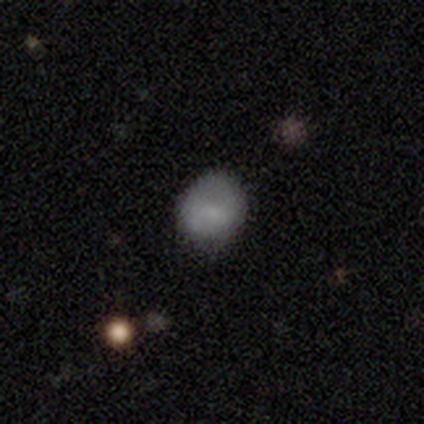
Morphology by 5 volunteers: Smooth or featured? 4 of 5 (80%) said smooth. How rounded? 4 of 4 (100%) said round. Merging? 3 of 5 (60%) said none.